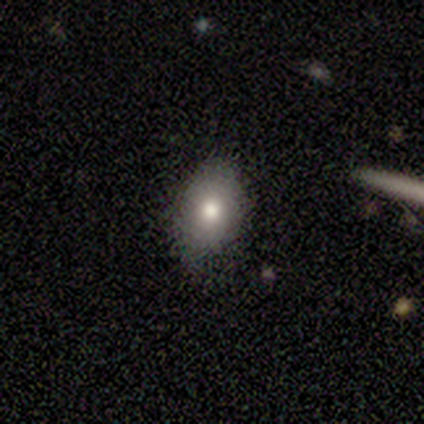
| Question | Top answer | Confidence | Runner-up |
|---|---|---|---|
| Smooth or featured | smooth | 80% | star or artifact (20%) |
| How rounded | in between | 100% | — |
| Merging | none | 50% | tied: minor disturbance (50%) |